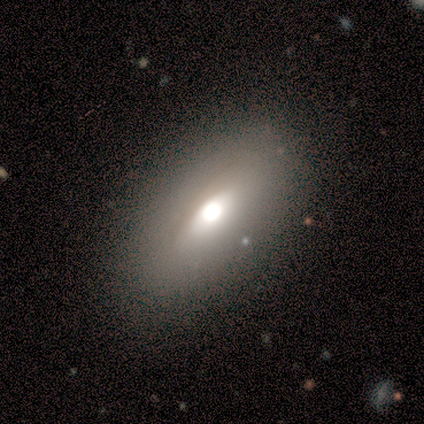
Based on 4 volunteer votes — Q: Smooth or featured?
A: featured or disk (50%); runner-up: smooth (25%)
Q: Edge-on disk?
A: no (100%)
Q: Bar?
A: strong (50%); tied with: no (50%)
Q: Spiral arms?
A: no (100%)
Q: Bulge size?
A: large (100%)
Q: Merging?
A: none (67%); runner-up: major disturbance (33%)